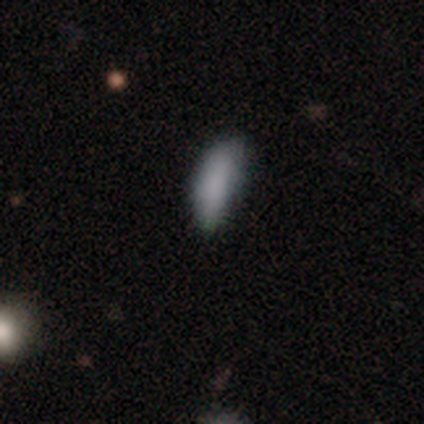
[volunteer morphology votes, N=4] This appears to be a smooth galaxy with no disk features (100%) that is in between round and cigar-shaped (75%). Merging: none (50%, tied with minor disturbance).